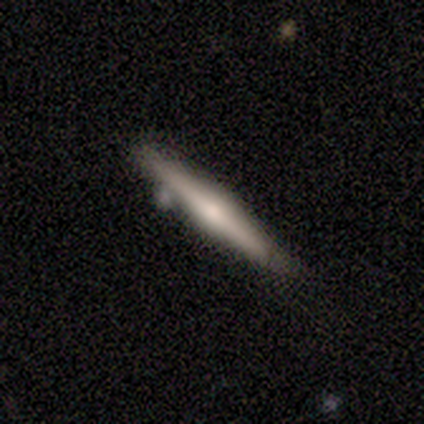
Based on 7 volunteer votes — Smooth or featured? 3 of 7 (43%, tied with featured or disk) said smooth. How rounded? 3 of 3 (100%) said cigar-shaped. Merging? 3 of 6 (50%) said none.